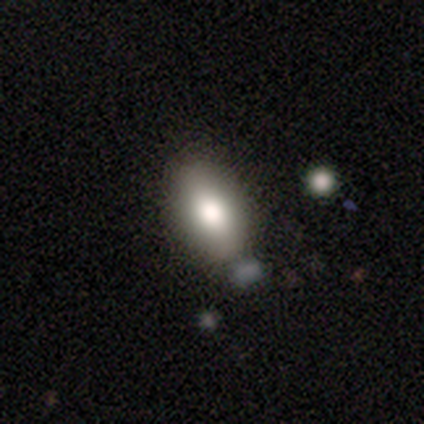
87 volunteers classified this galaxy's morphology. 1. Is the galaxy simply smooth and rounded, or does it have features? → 79% smooth, 10% featured or disk, 10% star or artifact.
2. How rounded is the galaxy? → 90% in between, 6% round, 4% cigar-shaped.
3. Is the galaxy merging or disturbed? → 79% none, 17% minor disturbance, 3% merger, 1% major disturbance.